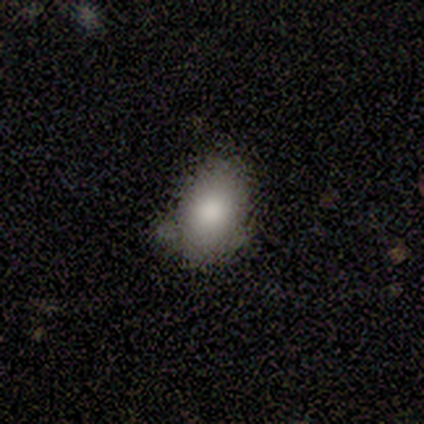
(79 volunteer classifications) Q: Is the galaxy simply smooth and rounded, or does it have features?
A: smooth — 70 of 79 (89%).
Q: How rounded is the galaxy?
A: in between — 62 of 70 (89%).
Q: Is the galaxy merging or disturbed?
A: none — 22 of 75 (29%).